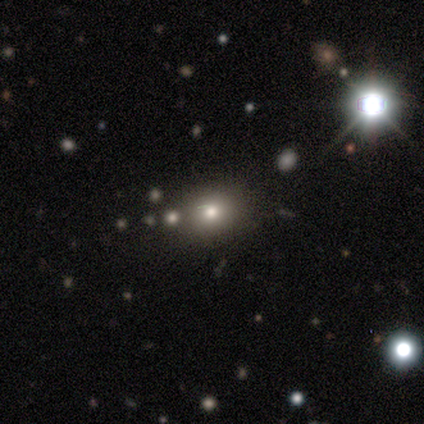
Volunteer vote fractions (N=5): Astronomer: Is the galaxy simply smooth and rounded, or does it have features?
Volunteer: smooth — 80%.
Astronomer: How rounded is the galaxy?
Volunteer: round — 50%, tied with in between at 50%.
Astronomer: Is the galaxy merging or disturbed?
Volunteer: none — 100%.